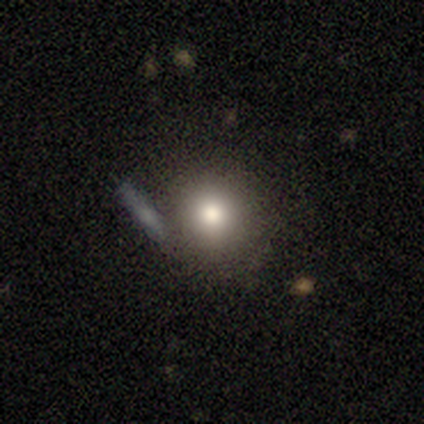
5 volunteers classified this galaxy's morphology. Volunteers were most divided on "smooth or featured": smooth: 80%, featured or disk: 20%, star or artifact: 0%. More confident: how rounded — round (100%); merging — none (80%).